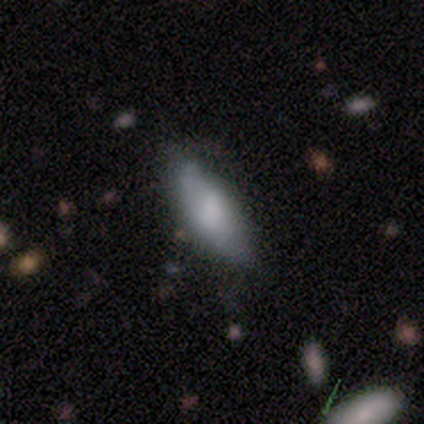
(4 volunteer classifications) Smooth or featured?
  - smooth: 75% *
  - featured or disk: 25%
  - star or artifact: 0%
How rounded?
  - in between: 67% *
  - cigar-shaped: 33%
  - round: 0%
Merging?
  - none: 50% * (tied)
  - minor disturbance: 50% * (tied)
  - major disturbance: 0%
  - merger: 0%